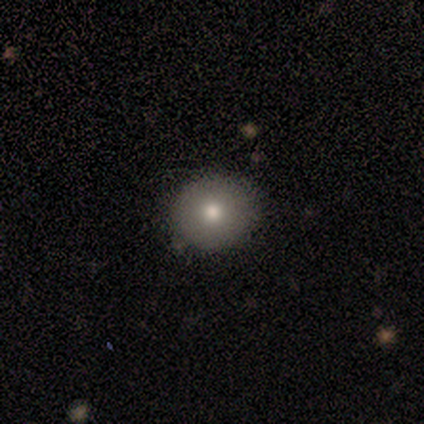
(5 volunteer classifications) smooth 80%, star or artifact 20%, featured or disk 0%. Down the decision tree: how rounded — round (100%); merging — none (75%).